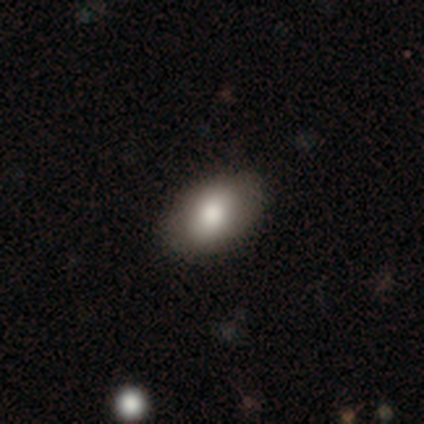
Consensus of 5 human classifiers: Q: Smooth or featured?
A: featured or disk (40%); tied with: star or artifact (40%)
Q: Edge-on disk?
A: no (100%)
Q: Bar?
A: weak (50%); tied with: no (50%)
Q: Spiral arms?
A: no (100%)
Q: Bulge size?
A: moderate (100%)
Q: Merging?
A: none (100%)